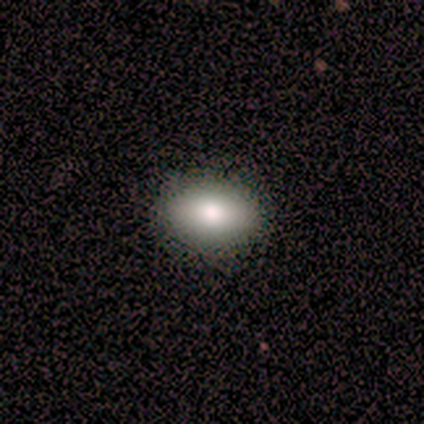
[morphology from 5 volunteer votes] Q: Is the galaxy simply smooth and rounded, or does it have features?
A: smooth — 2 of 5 (40%, tied with featured or disk).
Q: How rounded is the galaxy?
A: in between — 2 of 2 (100%).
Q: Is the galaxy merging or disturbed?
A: none — 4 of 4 (100%).